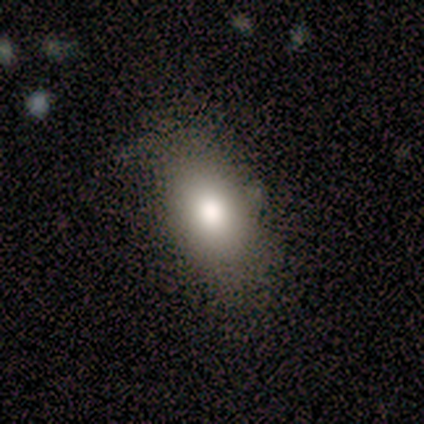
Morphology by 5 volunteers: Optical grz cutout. It shows a smooth galaxy with no disk features (100%) that is in between round and cigar-shaped (60%). Merging: none (80%).